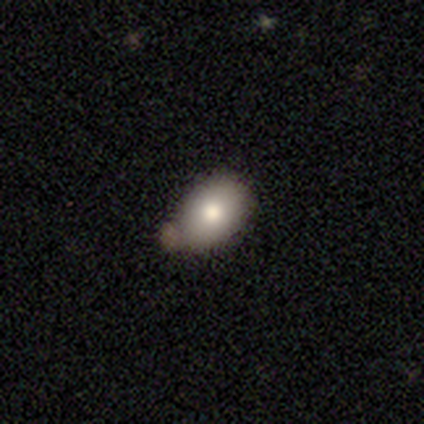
smooth_or_featured: smooth (p=0.74) [alt: featured or disk p=0.15]
how_rounded: in between (p=0.79) [alt: round p=0.21]
merging: none (p=0.60) [alt: minor disturbance p=0.29]